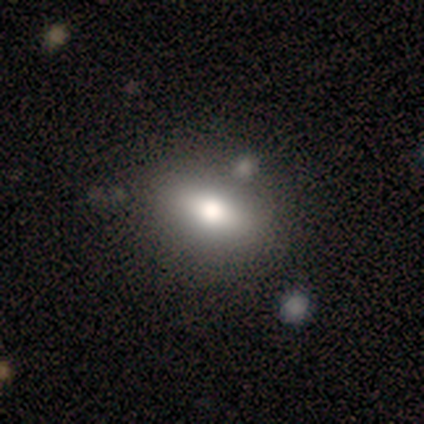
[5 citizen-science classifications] Overall: smooth (80%). How rounded: in between (75%). Merging: none (80%).